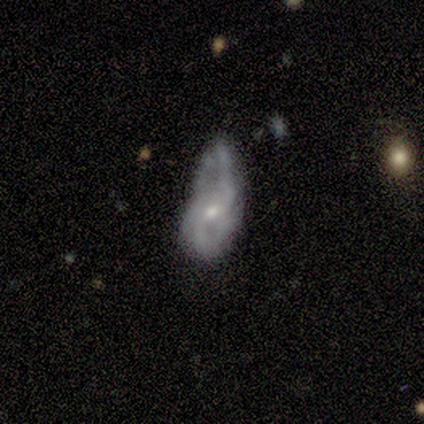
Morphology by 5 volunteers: This appears to be a featured or disk galaxy (80%) with no bar (75%), 2 (100%) medium (50%, tied with loose) spiral arms (50%, tied with no) and a moderate central bulge (50%). Merging: major disturbance (40%).